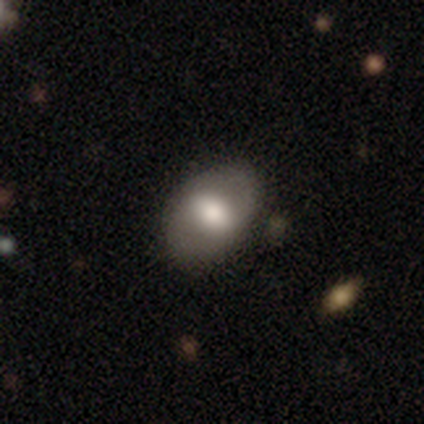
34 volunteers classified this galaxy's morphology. Smooth or featured?
  - smooth: 47% *
  - featured or disk: 44%
  - star or artifact: 9%
How rounded?
  - in between: 69% *
  - round: 31%
  - cigar-shaped: 0%
Merging?
  - none: 65% *
  - minor disturbance: 6%
  - major disturbance: 0%
  - merger: 0%